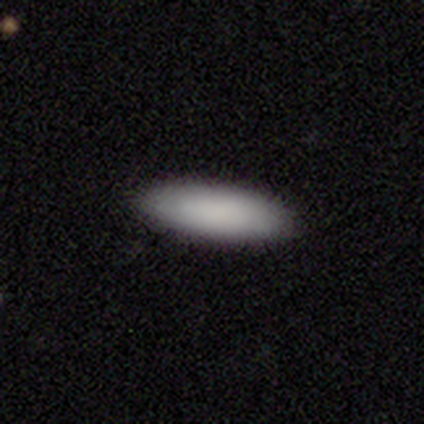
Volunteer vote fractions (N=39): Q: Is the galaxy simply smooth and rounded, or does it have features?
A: smooth — 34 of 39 (87%).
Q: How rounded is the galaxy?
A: in between — 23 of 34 (68%).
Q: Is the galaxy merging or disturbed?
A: none — 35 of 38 (92%).